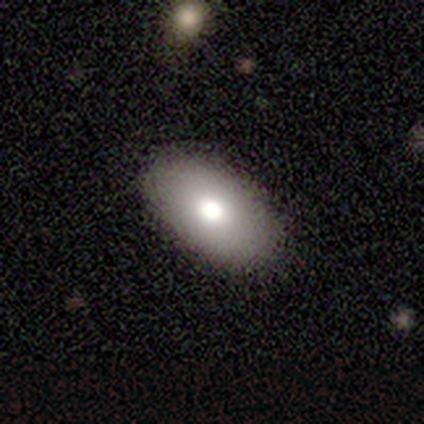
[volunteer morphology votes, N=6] Smooth or featured: smooth — 33% (tied with featured or disk — 33%; star or artifact — 33%)
How rounded: in between — 100%
Merging: none — 100%